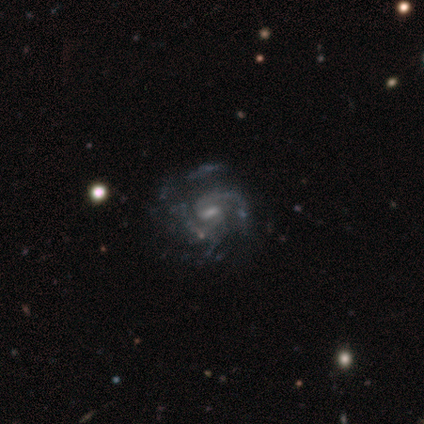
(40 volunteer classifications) Q: Smooth or featured?
A: featured or disk (95%); runner-up: smooth (5%)
Q: Edge-on disk?
A: no (100%)
Q: Bar?
A: weak (71%); runner-up: strong (16%)
Q: Spiral arms?
A: yes (97%); runner-up: no (3%)
Q: Spiral winding?
A: medium (49%); runner-up: loose (27%)
Q: Spiral arm count?
A: 2 (54%); runner-up: can't tell (22%)
Q: Bulge size?
A: small (63%); runner-up: moderate (21%)
Q: Merging?
A: none (38%); runner-up: major disturbance (22%)